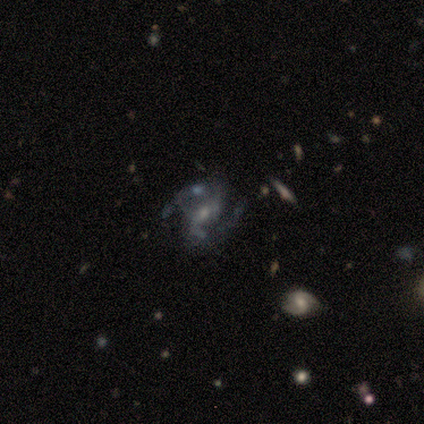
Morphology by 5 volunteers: Smooth or featured? featured or disk (100%)
Edge-on disk? no (100%)
Bar? no (80%)
Spiral arms? yes (100%)
Spiral winding? medium (80%)
Spiral arm count? 4 (60%)
Bulge size? small (60%)
Merging? none (40%)